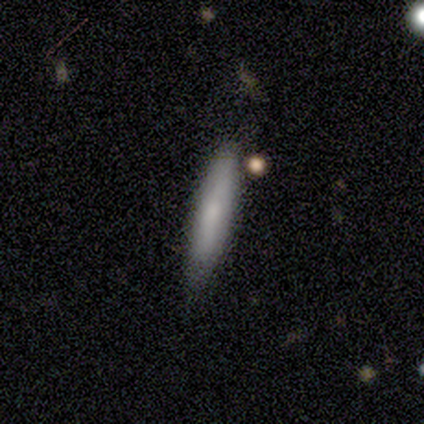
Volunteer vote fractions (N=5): Overall: smooth (80%). How rounded: cigar-shaped (75%). Merging: none (80%).